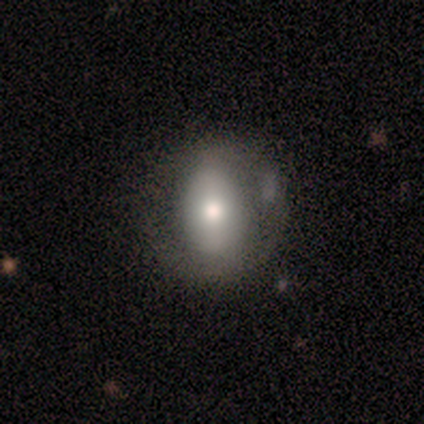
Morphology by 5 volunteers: Q: Smooth or featured?
A: smooth (80%); runner-up: featured or disk (20%)
Q: How rounded?
A: in between (100%)
Q: Merging?
A: none (80%); runner-up: major disturbance (20%)